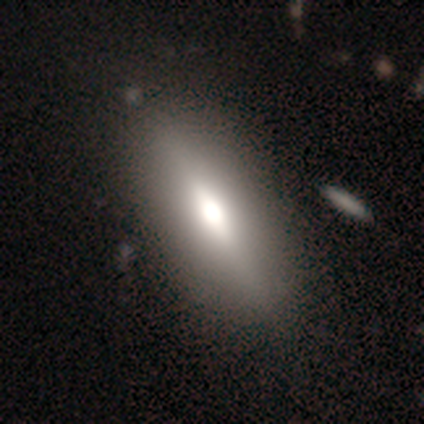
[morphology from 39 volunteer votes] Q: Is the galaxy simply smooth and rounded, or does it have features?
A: smooth — 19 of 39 (49%).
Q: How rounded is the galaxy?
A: in between — 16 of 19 (84%).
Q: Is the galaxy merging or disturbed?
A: none — 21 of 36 (58%).